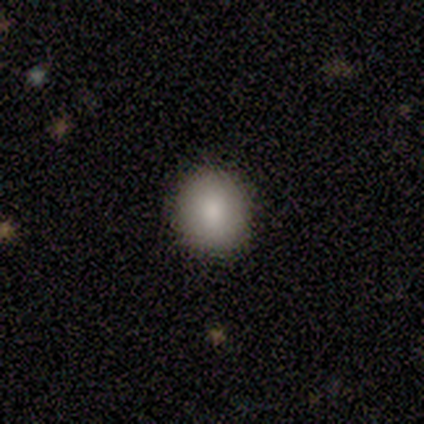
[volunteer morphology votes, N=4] Overall: smooth (75%). How rounded: round (100%). Merging: none (75%).